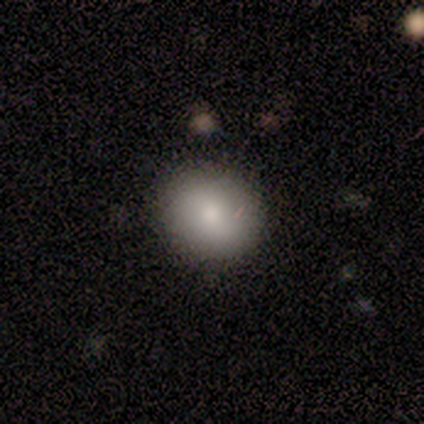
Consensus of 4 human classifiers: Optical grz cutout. It shows a smooth galaxy with no disk features (100%) that is round (75%). Merging: none (50%).